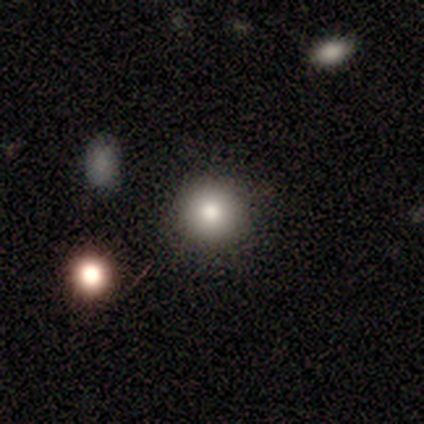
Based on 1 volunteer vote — smooth_or_featured: star or artifact (p=1.00)